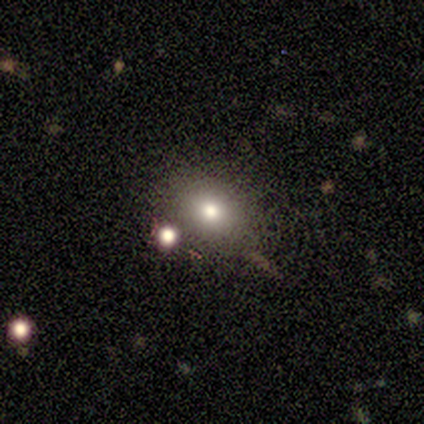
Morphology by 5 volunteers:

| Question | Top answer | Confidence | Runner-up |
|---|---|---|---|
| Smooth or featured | smooth | 80% | featured or disk (20%) |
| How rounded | round | 50% | tied: in between (50%) |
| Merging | none | 60% | minor disturbance (40%) |